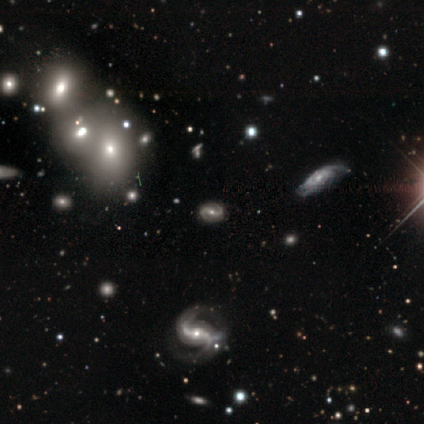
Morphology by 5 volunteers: Smooth or featured: featured or disk — 80% (star or artifact — 20%)
Edge-on disk: no — 100%
Bar: weak — 50% (strong — 25%)
Spiral arms: yes — 75% (no — 25%)
Spiral winding: loose — 67% (medium — 33%)
Spiral arm count: 2 — 100%
Bulge size: moderate — 50% (tied with small — 50%)
Merging: none — 100%